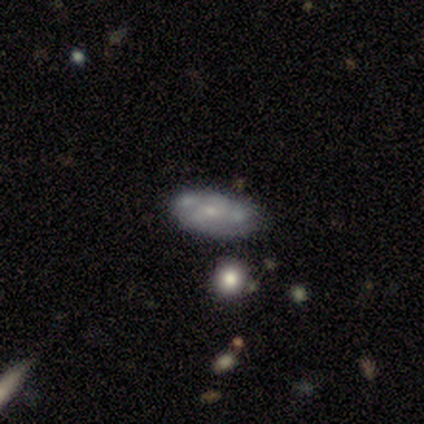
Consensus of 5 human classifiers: Smooth or featured: featured or disk — 60% (smooth — 20%)
Edge-on disk: no — 100%
Bar: no — 67% (strong — 33%)
Spiral arms: no — 100%
Bulge size: small — 67% (moderate — 33%)
Merging: none — 50% (tied with minor disturbance — 50%)